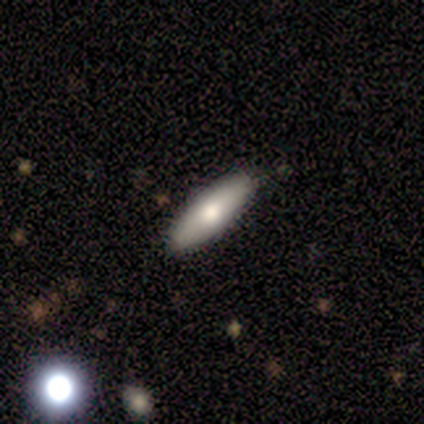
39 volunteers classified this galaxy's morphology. This is likely a smooth galaxy (72%). How rounded: possibly in between (54%). Merging: clearly none (86%).